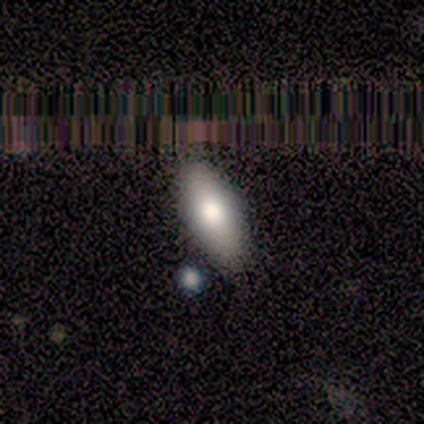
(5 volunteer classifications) smooth-or-featured: smooth: 100% | featured or disk: 0% | star or artifact: 0%
  how-rounded: in between: 80% | cigar-shaped: 20% | round: 0%
  merging: none: 100% | minor disturbance: 0% | major disturbance: 0% | merger: 0%